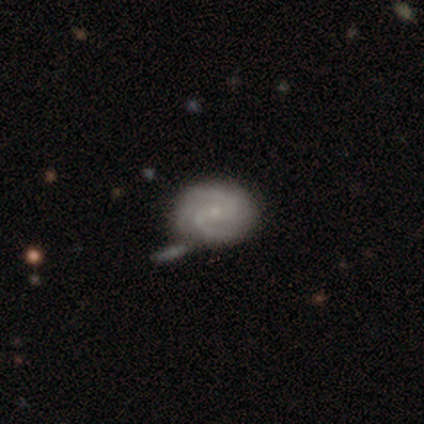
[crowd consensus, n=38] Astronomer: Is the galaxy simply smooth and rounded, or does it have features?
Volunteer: featured or disk — 71%.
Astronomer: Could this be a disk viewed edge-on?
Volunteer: no — 100%.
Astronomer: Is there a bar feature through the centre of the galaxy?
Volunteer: weak — 56% (runner-up: no, 41%).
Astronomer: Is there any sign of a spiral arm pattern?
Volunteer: yes — 96%.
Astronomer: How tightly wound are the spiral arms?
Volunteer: medium — 46% (runner-up: tight, 35%).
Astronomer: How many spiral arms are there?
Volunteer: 2 — 65%.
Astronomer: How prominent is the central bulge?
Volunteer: small — 67%.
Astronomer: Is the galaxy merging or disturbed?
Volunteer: none — 59%.